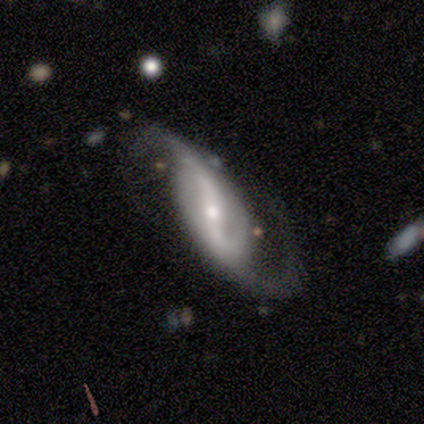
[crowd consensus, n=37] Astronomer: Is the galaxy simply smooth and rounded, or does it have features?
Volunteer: featured or disk — 92%.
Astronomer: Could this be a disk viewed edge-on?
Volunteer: no — 97%.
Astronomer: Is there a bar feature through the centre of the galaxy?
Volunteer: strong — 73%.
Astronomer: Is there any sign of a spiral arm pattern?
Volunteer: yes — 100%.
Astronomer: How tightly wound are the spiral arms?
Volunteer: loose — 82%.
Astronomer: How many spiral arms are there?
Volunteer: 2 — 94%.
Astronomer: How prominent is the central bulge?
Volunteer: small — 55% (runner-up: moderate, 39%).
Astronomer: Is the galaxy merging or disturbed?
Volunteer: none — 42% (runner-up: minor disturbance, 28%).